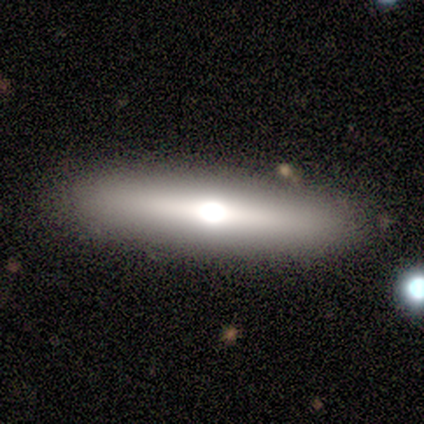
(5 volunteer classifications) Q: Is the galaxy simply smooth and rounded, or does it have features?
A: featured or disk — 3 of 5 (60%).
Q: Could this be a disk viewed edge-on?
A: yes — 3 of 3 (100%).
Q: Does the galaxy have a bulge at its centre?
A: rounded — 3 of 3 (100%).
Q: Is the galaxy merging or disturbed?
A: none — 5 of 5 (100%).